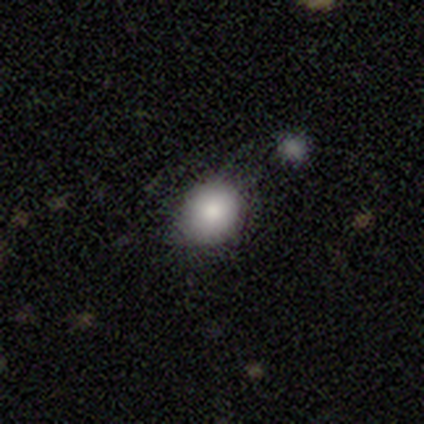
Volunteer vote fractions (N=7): smooth 43%, featured or disk 29%, star or artifact 29%. Down the decision tree: how rounded — round (100%); merging — none (60%).